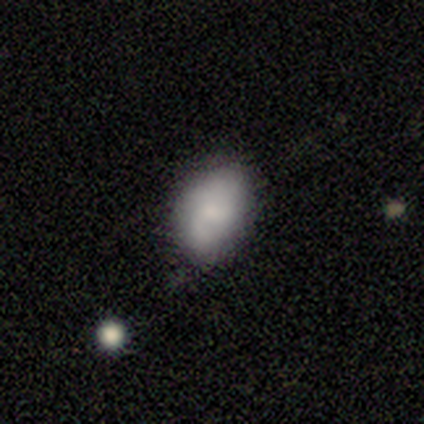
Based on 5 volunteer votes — A smooth galaxy with no disk features (100%) that is in between round and cigar-shaped (80%).

Vote fractions:
- Smooth or featured? smooth: 100% / featured or disk: 0% / star or artifact: 0%
- How rounded? in between: 80% / round: 20% / cigar-shaped: 0%
- Merging? minor disturbance: 60% / none: 40% / major disturbance: 0% / merger: 0%